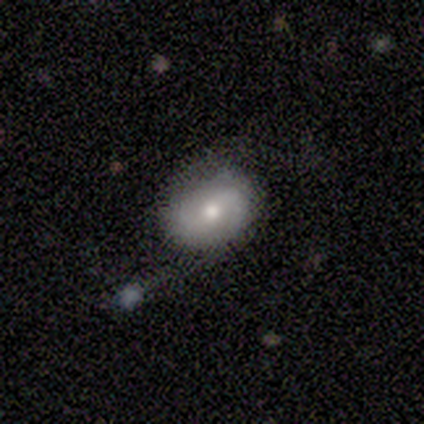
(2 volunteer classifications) This is clearly a smooth galaxy (100%). How rounded: clearly in between (100%). Merging: clearly none (100%).